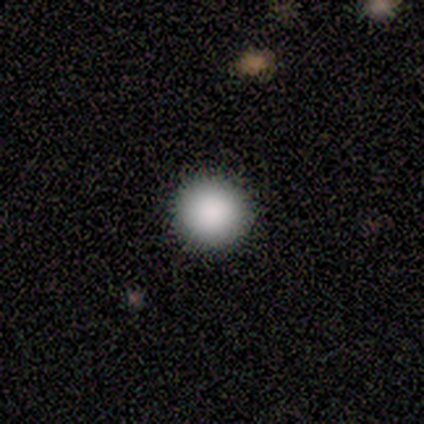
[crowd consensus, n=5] A smooth galaxy with no disk features (100%) that is round (100%). Merging: none (100%).